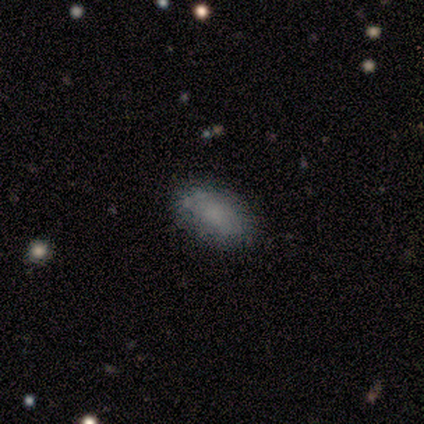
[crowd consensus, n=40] Smooth or featured? smooth (65%)
How rounded? in between (100%)
Merging? none (71%)